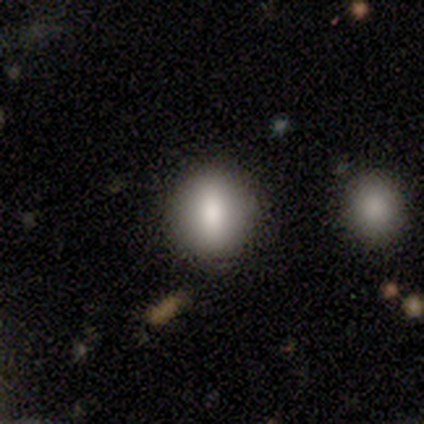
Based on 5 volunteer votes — This is clearly a smooth galaxy (100%). How rounded: clearly round (80%). Merging: clearly none (80%).